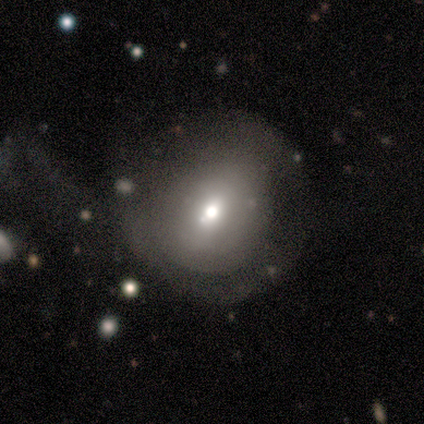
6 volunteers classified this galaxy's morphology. type=smooth (67%); roundness=round (75%); merging=none (75%).